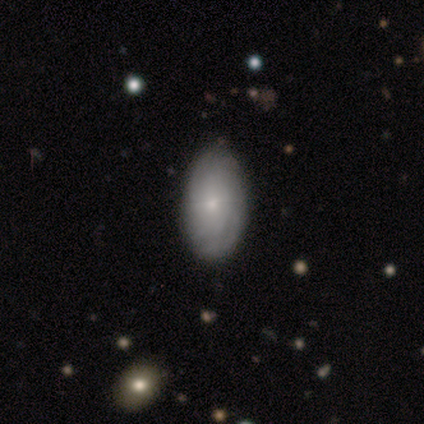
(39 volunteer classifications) This is possibly a featured or disk galaxy (46%). It is clearly not viewed edge-on (89%). Bar: clearly no (100%). Spiral arm pattern: clearly yes (88%). Spiral arm count: likely can't tell (64%). Spiral winding: clearly tight (86%). Central bulge: likely small (62%). Merging: likely none (77%).